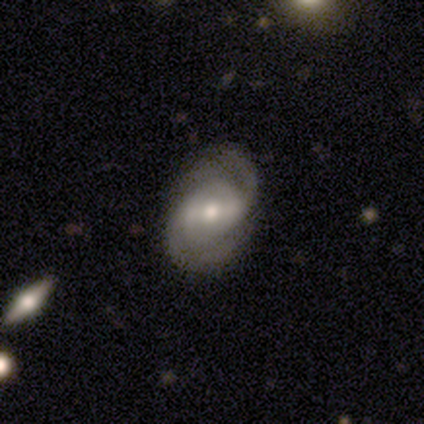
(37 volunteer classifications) Smooth or featured? 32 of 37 (86%) said featured or disk. Edge-on disk? 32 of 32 (100%) said no. Bar? 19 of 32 (59%) said strong. Spiral arms? 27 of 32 (84%) said yes. Spiral winding? 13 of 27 (48%) said medium. Spiral arm count? 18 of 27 (67%) said 2. Bulge size? 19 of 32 (59%) said moderate. Merging? 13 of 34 (38%) said none.